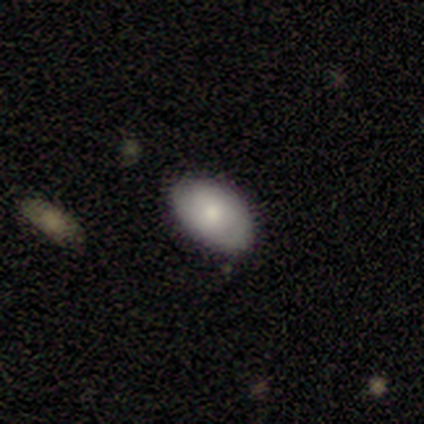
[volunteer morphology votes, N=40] A smooth galaxy with no disk features (57%) that is in between round and cigar-shaped (96%). Merging: none (79%).